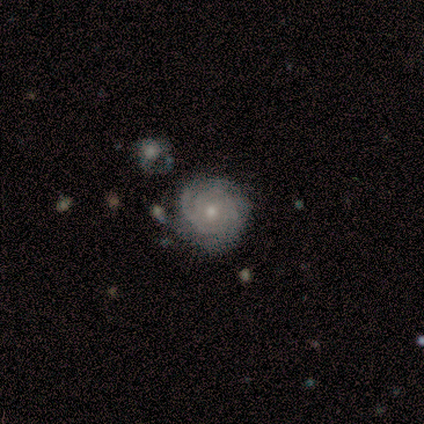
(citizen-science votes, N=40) featured or disk 98%, smooth 2%, star or artifact 0%. Down the decision tree: edge-on disk — no (95%); bar — no (92%); spiral arms — yes (95%); spiral arm count — can't tell (43%); spiral winding — tight (80%); bulge size — moderate (57%); merging — none (48%).